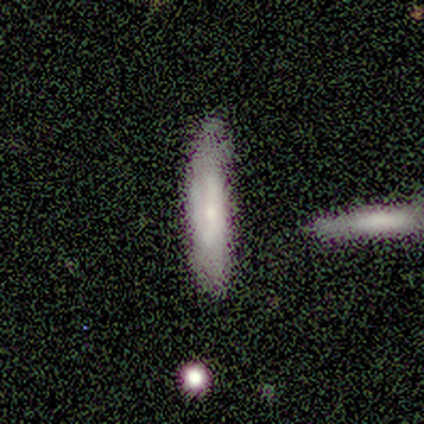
This is likely a smooth galaxy (75%). How rounded: likely cigar-shaped (67%). Merging: likely none (67%).